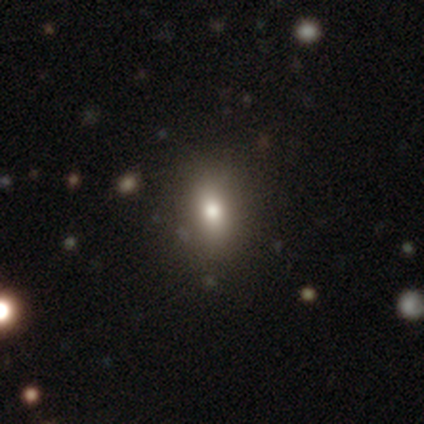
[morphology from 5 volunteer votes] Volunteers were most divided on "how rounded" (2-way tie): round: 50%, in between: 50%, cigar-shaped: 0%. More confident: merging — none (100%); smooth or featured — smooth (80%).